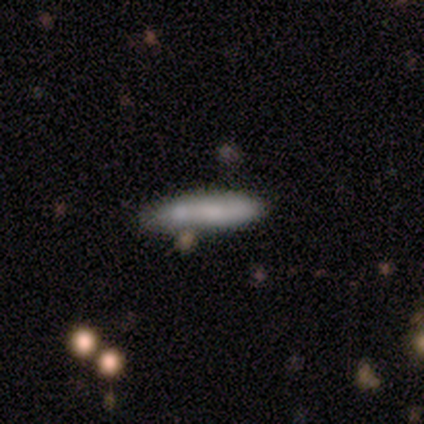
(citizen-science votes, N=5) This is clearly a smooth galaxy (80%). How rounded: likely cigar-shaped (75%). Merging: clearly none (80%).